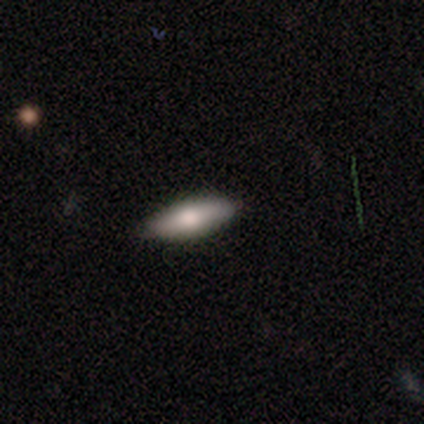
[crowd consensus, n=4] Smooth or featured?
  - smooth: 100% *
  - featured or disk: 0%
  - star or artifact: 0%
How rounded?
  - in between: 100% *
  - round: 0%
  - cigar-shaped: 0%
Merging?
  - none: 100% *
  - minor disturbance: 0%
  - major disturbance: 0%
  - merger: 0%